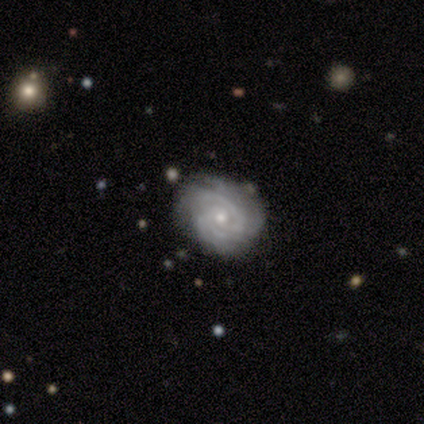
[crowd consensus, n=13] smooth_or_featured: featured or disk (p=0.77) [alt: star or artifact p=0.15]
disk_edge_on: no (p=1.00)
bar: no (p=1.00)
has_spiral_arms: yes (p=1.00)
spiral_winding: tight (p=0.80) [alt: medium p=0.20]
spiral_arm_count: 3 (p=0.40) [alt: 2 p=0.20]
bulge_size: small (p=0.80) [alt: moderate p=0.20]
merging: none (p=0.82) [alt: minor disturbance p=0.18]